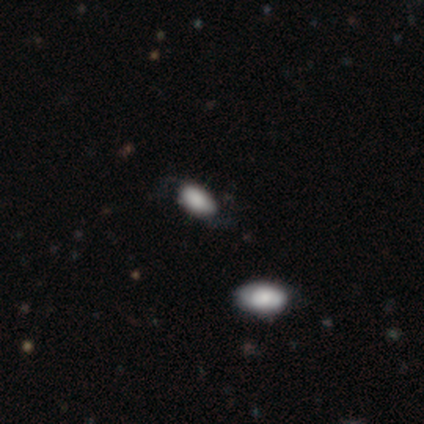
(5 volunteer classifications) Smooth or featured? smooth (100%)
How rounded? in between (100%)
Merging? none (60%)